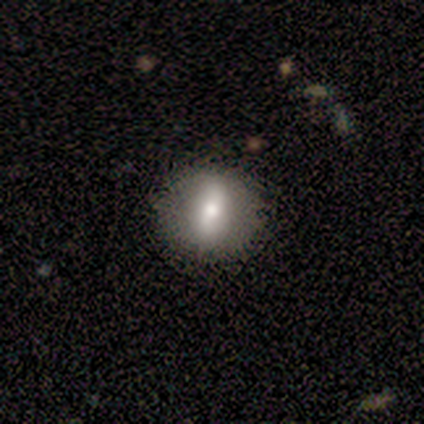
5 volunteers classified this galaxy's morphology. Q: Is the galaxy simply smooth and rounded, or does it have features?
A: smooth — 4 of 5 (80%).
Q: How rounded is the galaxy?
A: round — 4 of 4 (100%).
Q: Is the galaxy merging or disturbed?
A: none — 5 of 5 (100%).